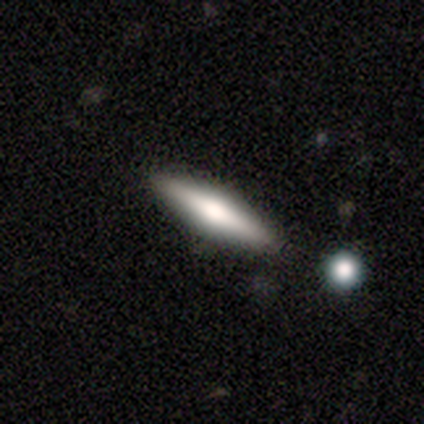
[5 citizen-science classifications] Smooth or featured? featured or disk (60%)
Edge-on disk? yes (100%)
Edge-on bulge? rounded (67%)
Merging? none (80%)